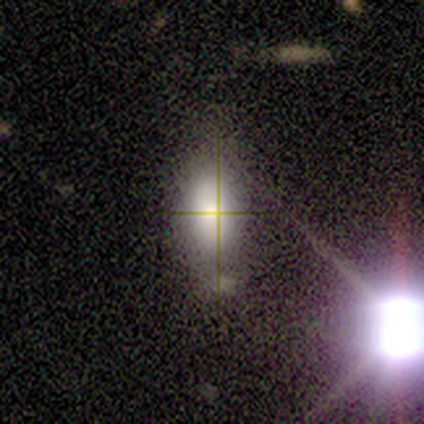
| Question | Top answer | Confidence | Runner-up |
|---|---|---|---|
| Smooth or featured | smooth | 44% | featured or disk (33%) |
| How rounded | in between | 100% | — |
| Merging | none | 71% | minor disturbance (29%) |